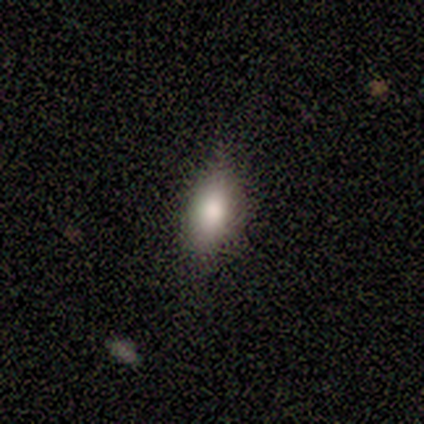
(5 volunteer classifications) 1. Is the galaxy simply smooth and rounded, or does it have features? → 80% smooth, 20% star or artifact, 0% featured or disk.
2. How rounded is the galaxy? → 100% in between, 0% round, 0% cigar-shaped.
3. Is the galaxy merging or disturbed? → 75% none, 25% minor disturbance, 0% major disturbance, 0% merger.